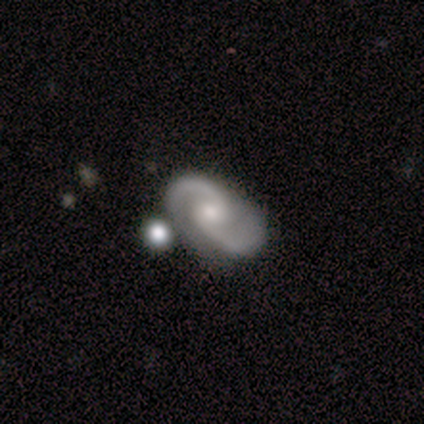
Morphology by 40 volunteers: A featured or disk galaxy (90%) with no bar (56%), 2 (97%) medium (56%) spiral arms (94%) and a moderate central bulge (47%). Merging: none (65%).